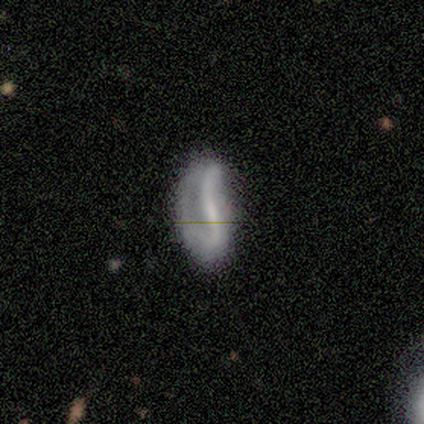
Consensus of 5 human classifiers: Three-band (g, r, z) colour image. It shows a featured or disk galaxy (60%) with a strong bar (33%, tied with weak and no), 1 (50%, tied with 2) tight (50%, tied with loose) spiral arms (67%) and a large central bulge (67%). Merging: major disturbance (50%).